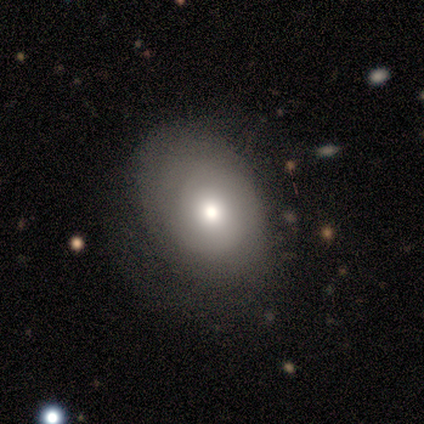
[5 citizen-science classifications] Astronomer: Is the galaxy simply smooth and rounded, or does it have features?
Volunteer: smooth — 60%.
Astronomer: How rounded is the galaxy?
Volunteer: in between — 100%.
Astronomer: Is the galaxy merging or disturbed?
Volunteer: none — 75%.